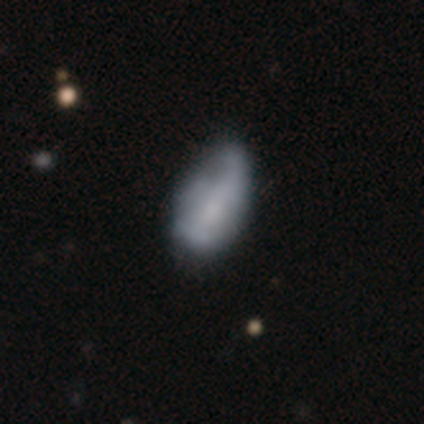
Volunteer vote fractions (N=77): Volunteers were most divided on "smooth or featured": smooth: 51%, featured or disk: 47%, star or artifact: 3%. Remaining: how rounded — in between (95%); merging — minor disturbance (24%).